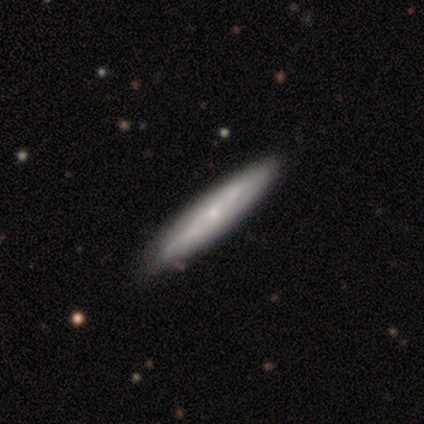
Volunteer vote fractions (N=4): This appears to be a featured or disk galaxy (75%) with no bar (100%), tight (100%) spiral arms (50%, tied with no) and a moderate central bulge (50%, tied with small). Merging: none (100%).